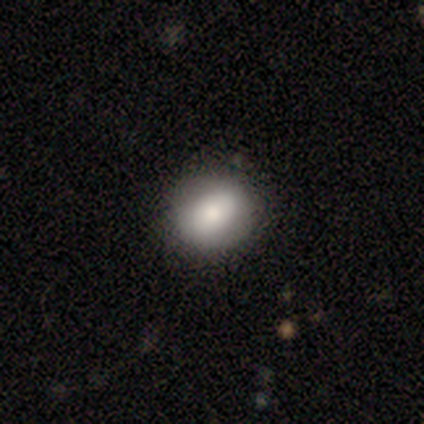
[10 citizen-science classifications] smooth-or-featured: smooth: 90% | star or artifact: 10% | featured or disk: 0%
  how-rounded: round: 67% | in between: 33% | cigar-shaped: 0%
  merging: none: 67% | minor disturbance: 33% | major disturbance: 0% | merger: 0%